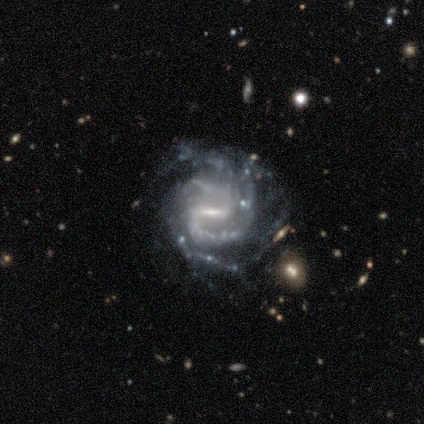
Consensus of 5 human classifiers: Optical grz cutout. It shows a featured or disk galaxy (80%) with a strong bar (75%), 2 (50%, tied with 4) tight (50%, tied with medium) spiral arms (100%) and a moderate central bulge (50%). Merging: none (75%).